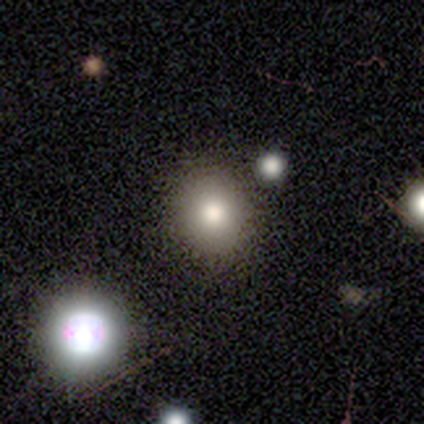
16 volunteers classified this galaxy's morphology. Overall: smooth (75%). How rounded: round (83%). Merging: none (77%).